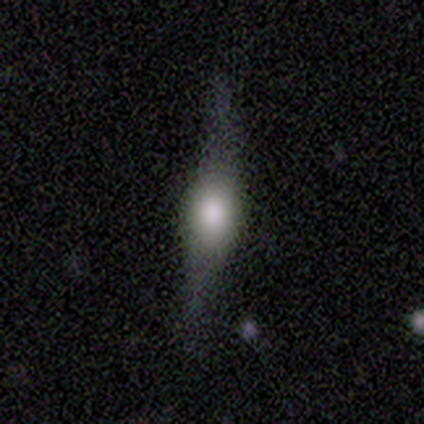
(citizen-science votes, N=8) This appears to be a smooth galaxy with no disk features (75%) that is cigar-shaped (67%). Merging: none (88%).